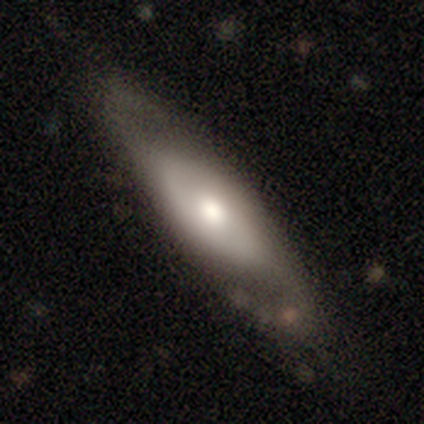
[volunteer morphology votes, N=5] Smooth or featured: featured or disk — 80% (smooth — 20%)
Edge-on disk: no — 100%
Bar: no — 75% (weak — 25%)
Spiral arms: yes — 50% (tied with no — 50%)
Spiral winding: medium — 100%
Spiral arm count: 2 — 50% (tied with can't tell — 50%)
Bulge size: moderate — 100%
Merging: none — 100%